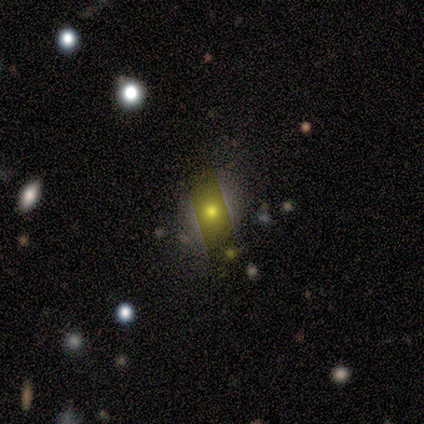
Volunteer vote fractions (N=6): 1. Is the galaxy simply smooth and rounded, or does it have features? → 67% smooth, 33% featured or disk, 0% star or artifact.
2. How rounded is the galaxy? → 75% round, 25% in between, 0% cigar-shaped.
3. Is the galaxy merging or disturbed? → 83% none, 17% minor disturbance, 0% major disturbance, 0% merger.